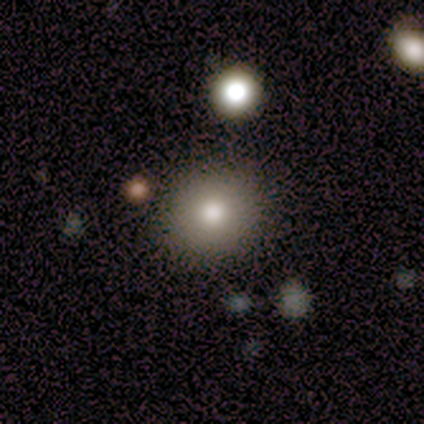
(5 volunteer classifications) Overall: smooth (100%). How rounded: round (80%). Merging: none (100%).